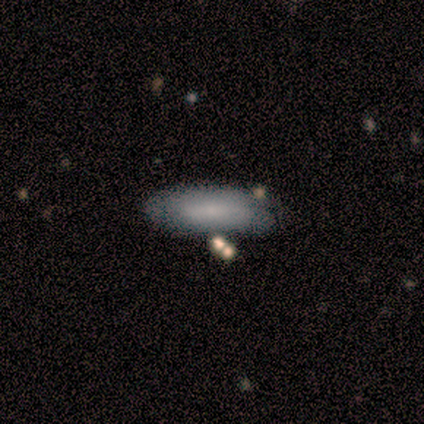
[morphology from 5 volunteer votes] Overall: smooth (100%). How rounded: in between (60%; cigar-shaped 40%). Merging: none (80%).